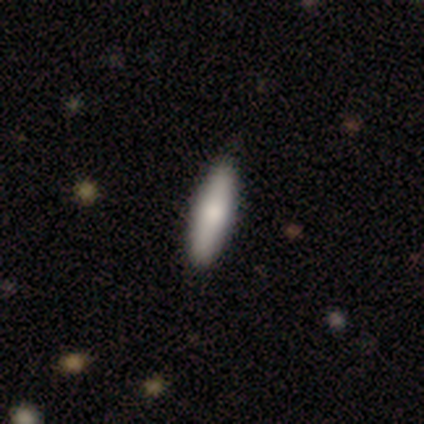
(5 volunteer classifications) This is clearly a smooth galaxy (80%). How rounded: possibly in between (50%, tied with cigar-shaped). Merging: clearly none (80%).